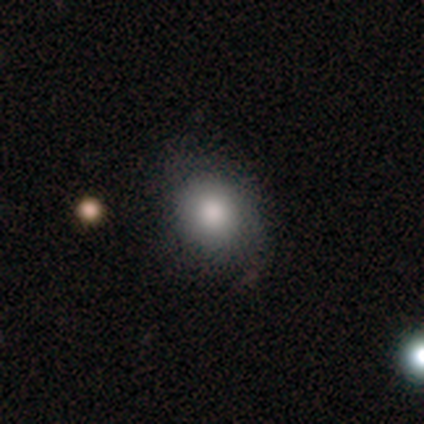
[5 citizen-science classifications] Smooth or featured?
  - smooth: 100% *
  - featured or disk: 0%
  - star or artifact: 0%
How rounded?
  - round: 80% *
  - in between: 20%
  - cigar-shaped: 0%
Merging?
  - none: 80% *
  - minor disturbance: 20%
  - major disturbance: 0%
  - merger: 0%